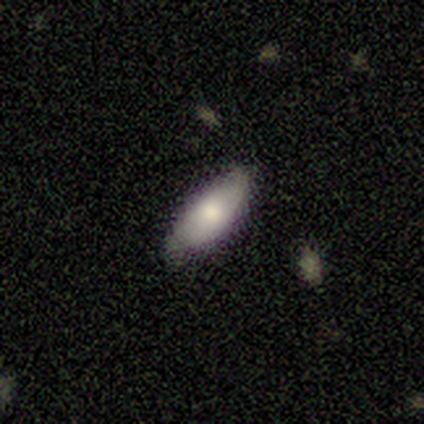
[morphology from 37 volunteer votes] Smooth or featured?
  - smooth: 81% *
  - featured or disk: 11%
  - star or artifact: 8%
How rounded?
  - in between: 77% *
  - cigar-shaped: 23%
  - round: 0%
Merging?
  - none: 82% *
  - minor disturbance: 15%
  - major disturbance: 3%
  - merger: 0%